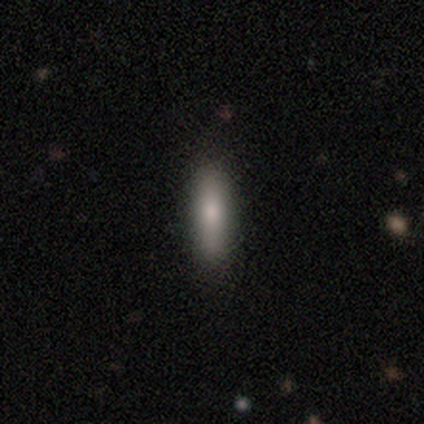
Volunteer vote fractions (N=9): A smooth galaxy with no disk features (78%) that is cigar-shaped (57%). Merging: none (89%).